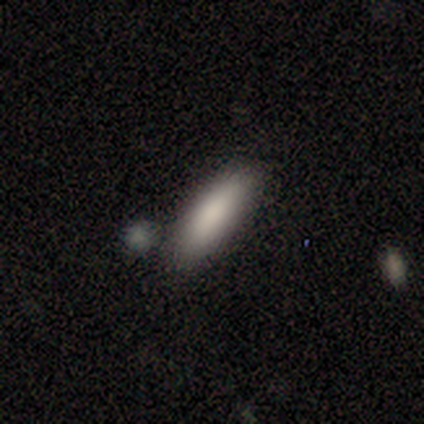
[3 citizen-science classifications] This appears to be a smooth galaxy with no disk features (67%) that is in between round and cigar-shaped (50%, tied with cigar-shaped). Merging: none (100%).